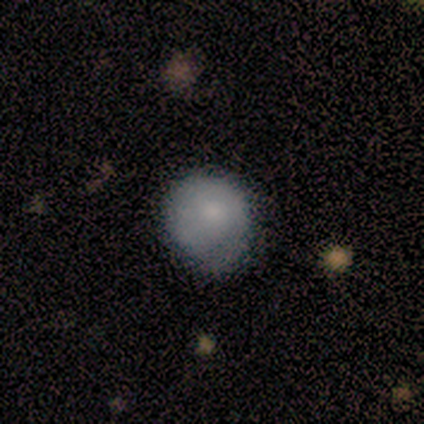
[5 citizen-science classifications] Smooth or featured? 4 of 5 (80%) said smooth. How rounded? 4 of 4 (100%) said round. Merging? 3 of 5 (60%) said minor disturbance.